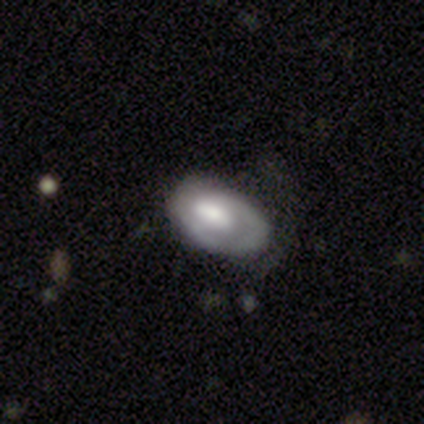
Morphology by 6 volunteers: smooth-or-featured: featured or disk: 67% | smooth: 33% | star or artifact: 0%
  disk-edge-on: no: 100% | yes: 0%
    bar: no: 75% | weak: 25% | strong: 0%
    has-spiral-arms: yes: 50% (tied) | no: 50% (tied)
      spiral-winding: tight: 50% (tied) | medium: 50% (tied) | loose: 0%
      spiral-arm-count: 1: 50% (tied) | can't tell: 50% (tied) | 2: 0% | 3: 0% | 4: 0% | more than 4: 0%
    bulge-size: moderate: 75% | large: 25% | dominant: 0% | small: 0% | none: 0%
  merging: major disturbance: 50% | minor disturbance: 33% | none: 17% | merger: 0%